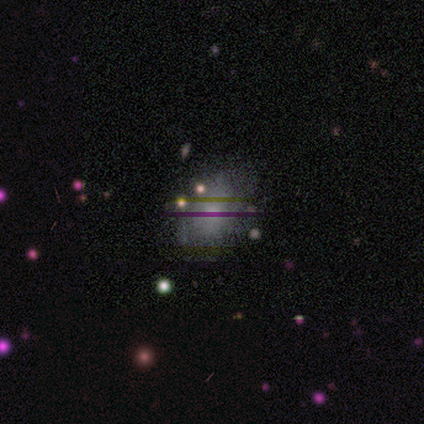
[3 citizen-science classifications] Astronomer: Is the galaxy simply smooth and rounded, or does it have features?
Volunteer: smooth — 67%.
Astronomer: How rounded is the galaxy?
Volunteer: round — 50%, tied with in between at 50%.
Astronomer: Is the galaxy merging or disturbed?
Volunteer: none — 100%.